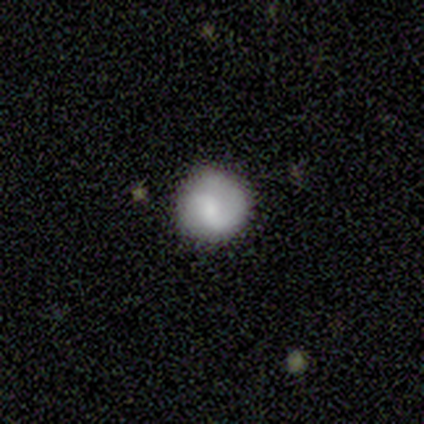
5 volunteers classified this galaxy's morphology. smooth 60%, featured or disk 40%, star or artifact 0%. Down the decision tree: how rounded — round (100%); merging — none (60%).